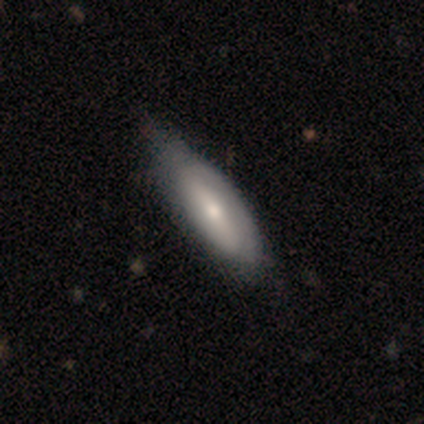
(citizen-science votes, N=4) Morphology: type=smooth (50%, tied with featured or disk); roundness=in between (50%, tied with cigar-shaped); merging=minor disturbance (50%).